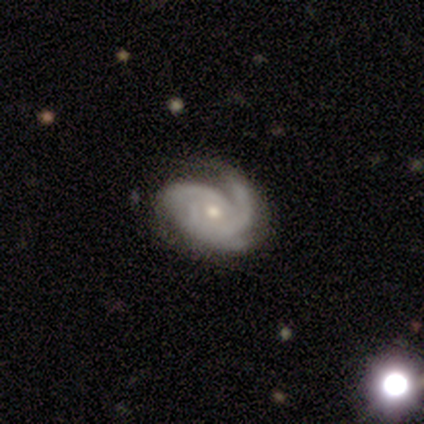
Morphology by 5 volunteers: Smooth or featured? featured or disk (100%)
Edge-on disk? no (100%)
Bar? weak (40%, tied with no)
Spiral arms? yes (100%)
Spiral winding? tight (80%)
Spiral arm count? 3 (60%)
Bulge size? small (100%)
Merging? none (80%)